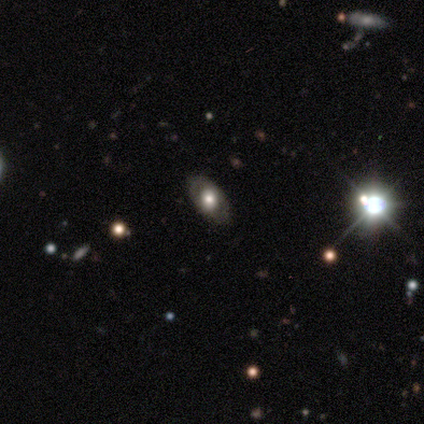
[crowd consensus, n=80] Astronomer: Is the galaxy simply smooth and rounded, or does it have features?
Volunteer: featured or disk — 60%.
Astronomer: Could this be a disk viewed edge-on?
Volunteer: no — 92%.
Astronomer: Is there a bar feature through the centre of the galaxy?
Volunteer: no — 82%.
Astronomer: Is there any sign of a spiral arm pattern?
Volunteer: no — 70%.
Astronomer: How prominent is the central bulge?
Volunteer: large — 59%.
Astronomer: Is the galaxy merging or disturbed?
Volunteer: none — 96%.